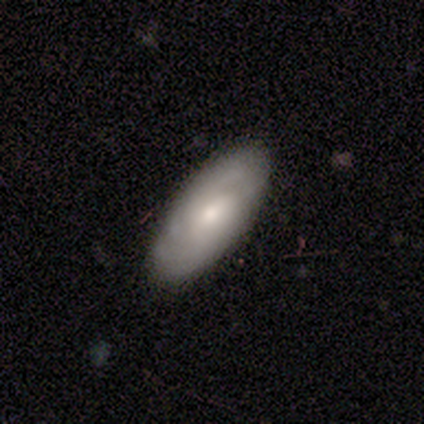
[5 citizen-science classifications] This is likely a featured or disk galaxy (60%). It is likely not viewed edge-on (67%). Bar: clearly no (100%). Spiral arm pattern: possibly yes (50%, tied with no). Spiral arm count: clearly can't tell (100%). Spiral winding: clearly tight (100%). Central bulge: clearly moderate (100%). Merging: clearly none (100%).